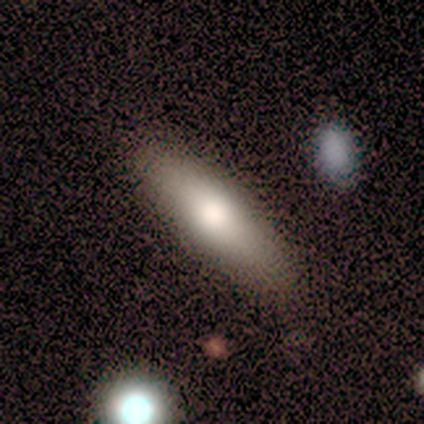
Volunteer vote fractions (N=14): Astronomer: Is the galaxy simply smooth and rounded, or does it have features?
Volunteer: smooth — 100%.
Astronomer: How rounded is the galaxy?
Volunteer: cigar-shaped — 71%.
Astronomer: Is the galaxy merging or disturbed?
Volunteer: none — 93%.